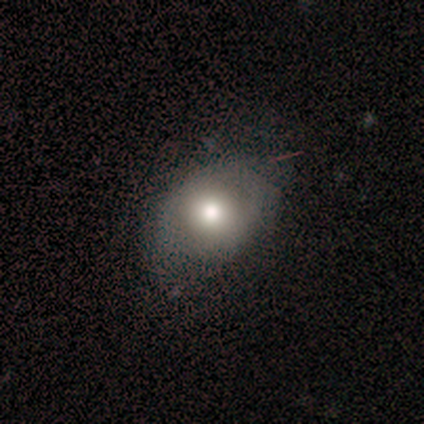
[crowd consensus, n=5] Morphology: type=smooth (80%); roundness=round (100%); merging=minor disturbance (60%).